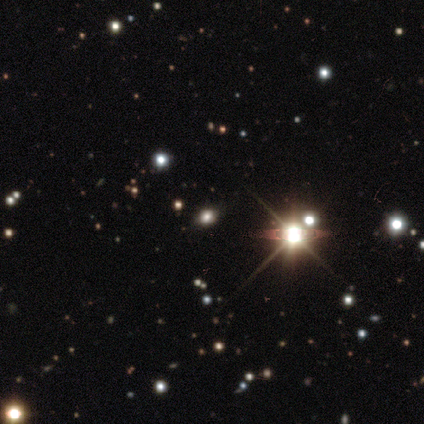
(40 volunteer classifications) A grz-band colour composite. It shows a star or artifact, not a galaxy (65%).